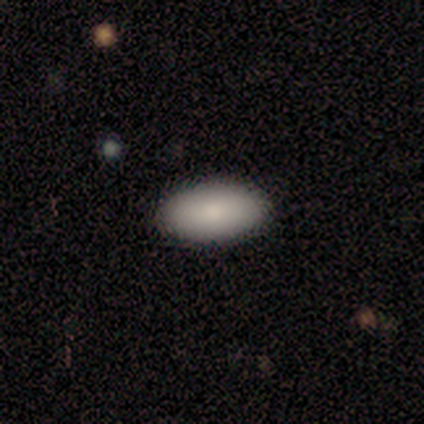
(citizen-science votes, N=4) smooth 75%, featured or disk 25%, star or artifact 0%. Down the decision tree: how rounded — in between (100%); merging — none (100%).